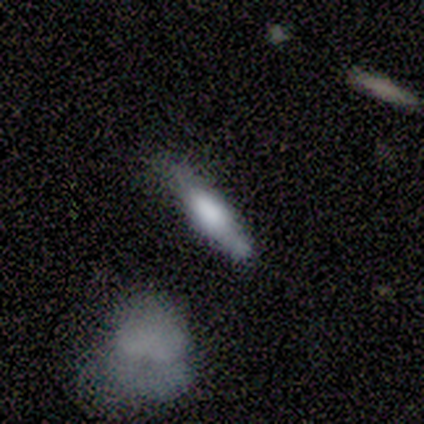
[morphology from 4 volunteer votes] smooth-or-featured: smooth: 100% | featured or disk: 0% | star or artifact: 0%
  how-rounded: in between: 50% (tied) | cigar-shaped: 50% (tied) | round: 0%
  merging: minor disturbance: 50% | none: 25% | merger: 25% | major disturbance: 0%